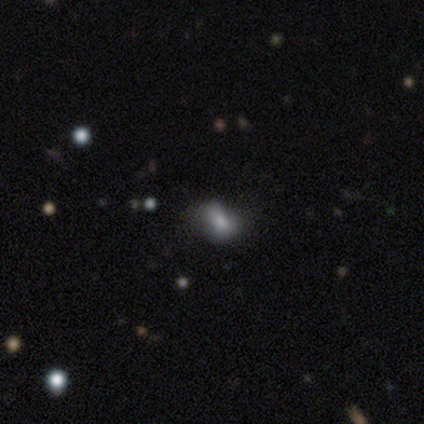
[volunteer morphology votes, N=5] Smooth or featured? 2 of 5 (40%, tied with featured or disk) said smooth. How rounded? 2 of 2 (100%) said in between. Merging? 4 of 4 (100%) said none.